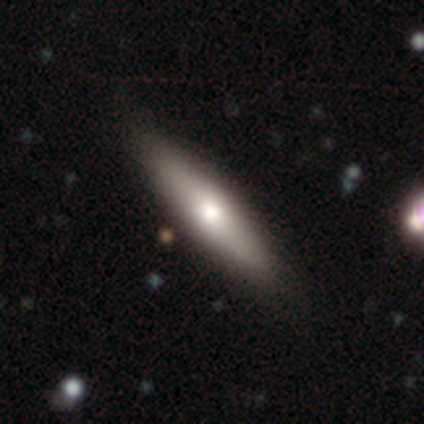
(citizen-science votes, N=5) Q: Smooth or featured?
A: smooth (80%); runner-up: star or artifact (20%)
Q: How rounded?
A: cigar-shaped (100%)
Q: Merging?
A: none (75%); runner-up: minor disturbance (25%)